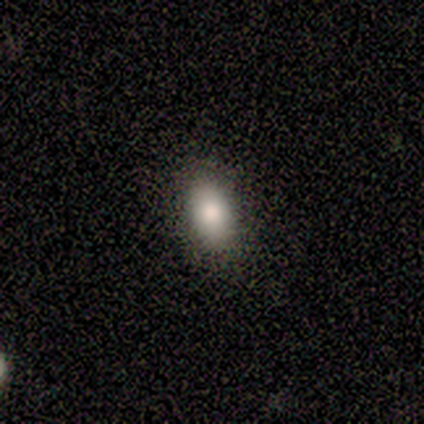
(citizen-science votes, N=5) Smooth or featured: smooth — 100%
How rounded: in between — 80% (round — 20%)
Merging: none — 100%